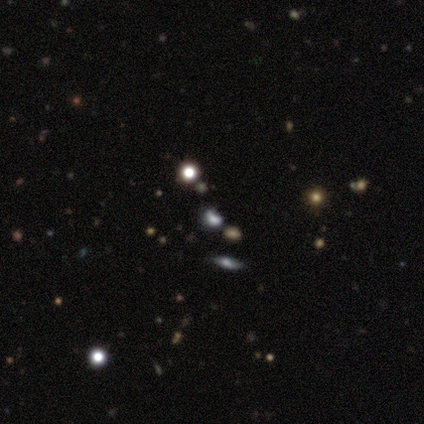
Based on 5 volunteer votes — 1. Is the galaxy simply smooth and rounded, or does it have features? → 40% smooth (tied), 40% star or artifact (tied), 20% featured or disk.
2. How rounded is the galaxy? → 50% round (tied), 50% in between (tied), 0% cigar-shaped.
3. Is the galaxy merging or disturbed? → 67% none, 33% major disturbance, 0% minor disturbance, 0% merger.